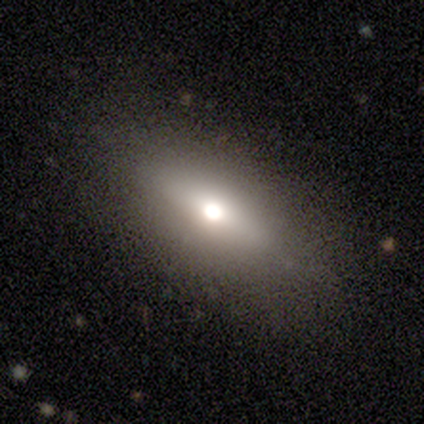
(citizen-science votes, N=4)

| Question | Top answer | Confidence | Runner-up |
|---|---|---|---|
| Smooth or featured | smooth | 50% | tied: featured or disk (50%) |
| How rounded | in between | 100% | — |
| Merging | none | 100% | — |